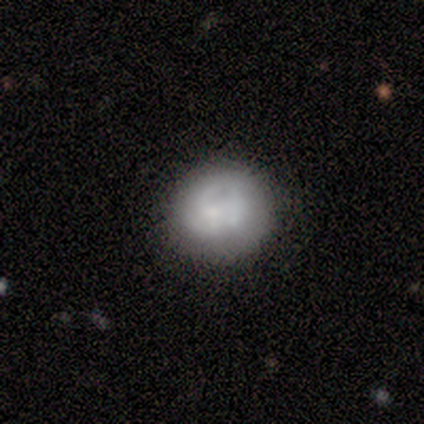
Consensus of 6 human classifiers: Smooth or featured: featured or disk — 50% (smooth — 33%)
Edge-on disk: no — 100%
Bar: no — 67% (weak — 33%)
Spiral arms: no — 100%
Bulge size: dominant — 33% (tied with small — 33%; none — 33%)
Merging: minor disturbance — 60% (none — 40%)